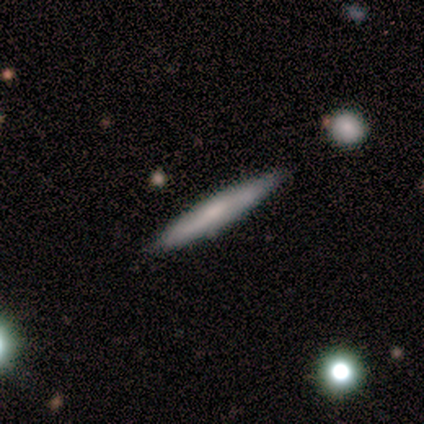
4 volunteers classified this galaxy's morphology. type=smooth (50%, tied with featured or disk); roundness=cigar-shaped (100%); merging=none (100%).